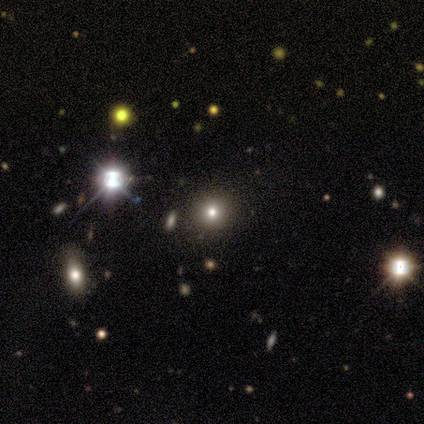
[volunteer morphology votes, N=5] smooth-or-featured: smooth: 60% | star or artifact: 40% | featured or disk: 0%
  how-rounded: round: 100% | in between: 0% | cigar-shaped: 0%
  merging: none: 100% | minor disturbance: 0% | major disturbance: 0% | merger: 0%